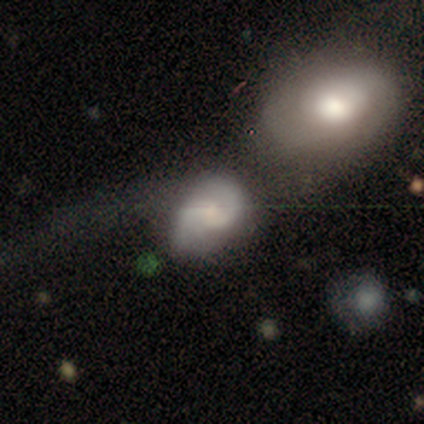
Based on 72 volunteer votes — A featured or disk galaxy (68%) with no bar (67%), 2 (88%) medium (62%) spiral arms (88%) and a small central bulge (54%).

Vote fractions:
- Smooth or featured? featured or disk: 68% / smooth: 26% / star or artifact: 6%
- Edge-on disk? no: 98% / yes: 2%
- Bar? no: 67% / weak: 31% / strong: 2%
- Spiral arms? yes: 88% / no: 12%
- Spiral winding? medium: 62% / tight: 19% / loose: 19%
- Spiral arm count? 2: 88% / 1: 5% / can't tell: 5% / 3: 2% / 4: 0% / more than 4: 0%
- Bulge size? small: 54% / moderate: 35% / large: 4% / none: 4% / dominant: 2%
- Merging? merger: 51% / major disturbance: 25% / none: 19% / minor disturbance: 4%